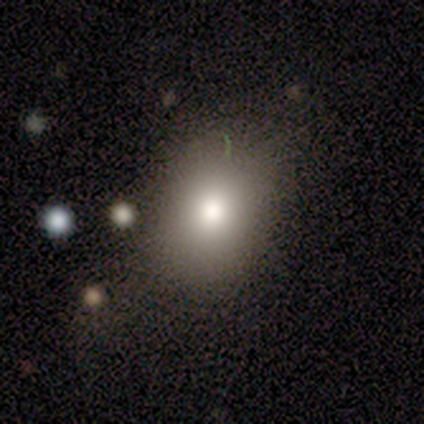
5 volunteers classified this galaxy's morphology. This appears to be a smooth galaxy with no disk features (60%) that is in between round and cigar-shaped (67%). Merging: none (80%).